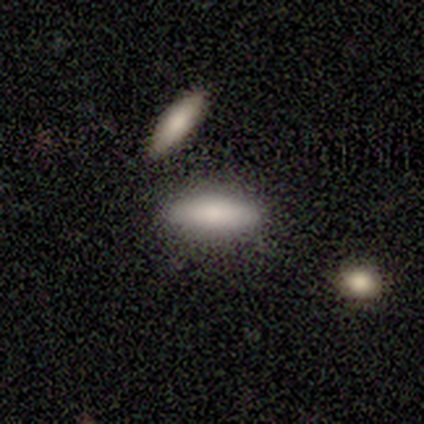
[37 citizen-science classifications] Smooth or featured: smooth — 68% (featured or disk — 22%)
How rounded: in between — 56% (cigar-shaped — 40%)
Merging: none — 85% (merger — 12%)